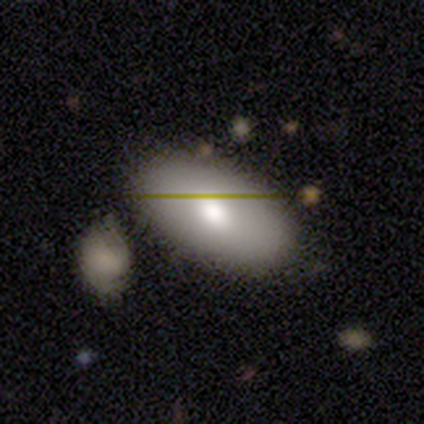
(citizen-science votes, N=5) A smooth galaxy with no disk features (80%) that is in between round and cigar-shaped (100%). Merging: none (80%).